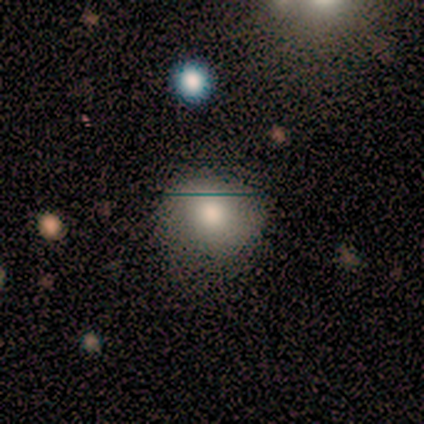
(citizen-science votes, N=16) Overall: smooth (62%; featured or disk 25%). How rounded: round (80%). Merging: none (79%).